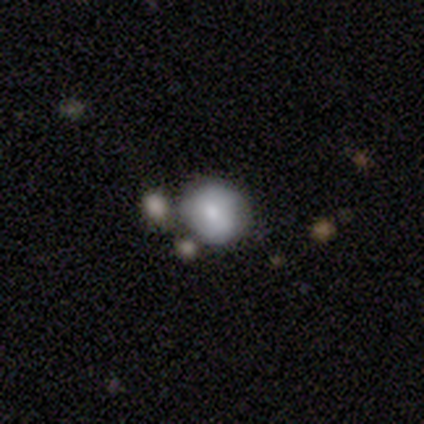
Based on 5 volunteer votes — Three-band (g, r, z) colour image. It shows a smooth galaxy with no disk features (80%) that is round (100%). Merging: none (40%, tied with minor disturbance).